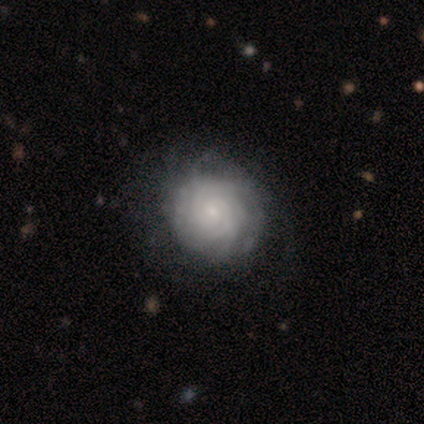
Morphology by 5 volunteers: smooth-or-featured: featured or disk: 80% | smooth: 20% | star or artifact: 0%
  disk-edge-on: no: 100% | yes: 0%
    bar: no: 75% | weak: 25% | strong: 0%
    has-spiral-arms: yes: 100% | no: 0%
      spiral-winding: tight: 100% | medium: 0% | loose: 0%
      spiral-arm-count: 4: 50% (tied) | can't tell: 50% (tied) | 1: 0% | 2: 0% | 3: 0% | more than 4: 0%
    bulge-size: small: 100% | dominant: 0% | large: 0% | moderate: 0% | none: 0%
  merging: none: 60% | minor disturbance: 20% | major disturbance: 20% | merger: 0%